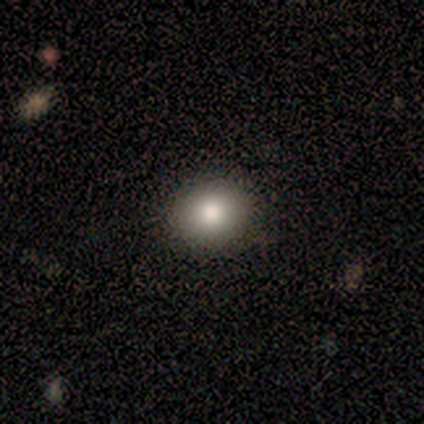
smooth-or-featured: smooth: 100% | featured or disk: 0% | star or artifact: 0%
  how-rounded: round: 80% | in between: 20% | cigar-shaped: 0%
  merging: none: 100% | minor disturbance: 0% | major disturbance: 0% | merger: 0%